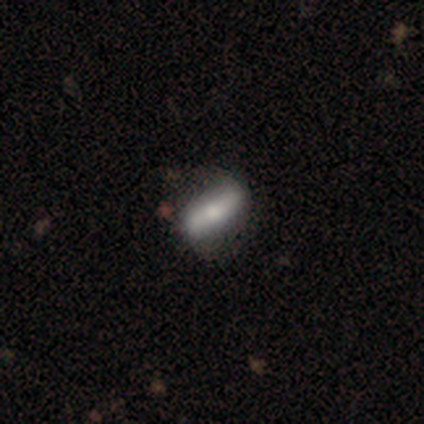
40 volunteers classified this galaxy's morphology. Smooth or featured?
  - featured or disk: 72% *
  - smooth: 25%
  - star or artifact: 2%
Edge-on disk?
  - no: 62% *
  - yes: 38%
Bar?
  - strong: 61% *
  - weak: 22%
  - no: 17%
Spiral arms?
  - yes: 56% *
  - no: 44%
Spiral winding?
  - loose: 70% *
  - medium: 30%
  - tight: 0%
Spiral arm count?
  - 2: 90% *
  - 4: 10%
  - 1: 0%
  - 3: 0%
  - more than 4: 0%
  - can't tell: 0%
Bulge size?
  - moderate: 44% *
  - small: 33%
  - none: 11%
  - dominant: 6%
  - large: 6%
Merging?
  - none: 46% *
  - minor disturbance: 15%
  - major disturbance: 5%
  - merger: 0%